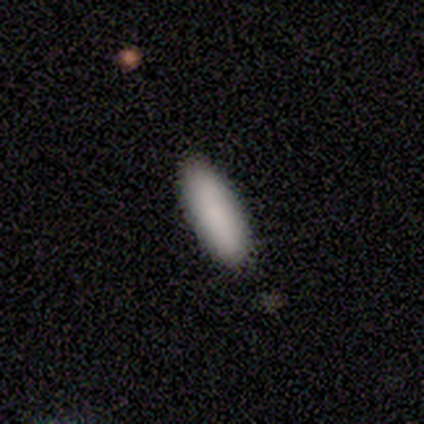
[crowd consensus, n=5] This appears to be a smooth galaxy with no disk features (100%) that is in between round and cigar-shaped (80%). Merging: none (100%).